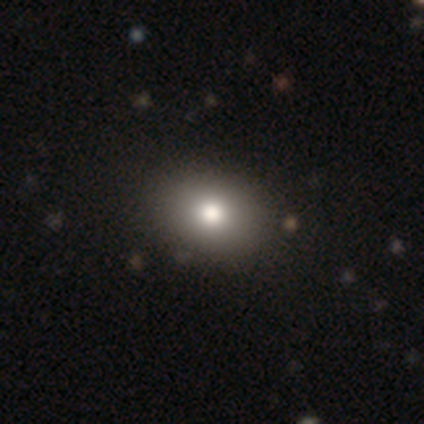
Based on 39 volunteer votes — This is clearly a smooth galaxy (85%). How rounded: likely in between (64%). Merging: likely none (67%).